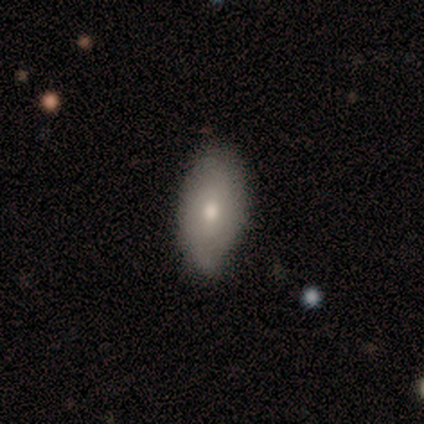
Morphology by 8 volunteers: smooth-or-featured: smooth: 62% | featured or disk: 38% | star or artifact: 0%
  how-rounded: in between: 80% | cigar-shaped: 20% | round: 0%
  merging: minor disturbance: 62% | none: 38% | major disturbance: 0% | merger: 0%